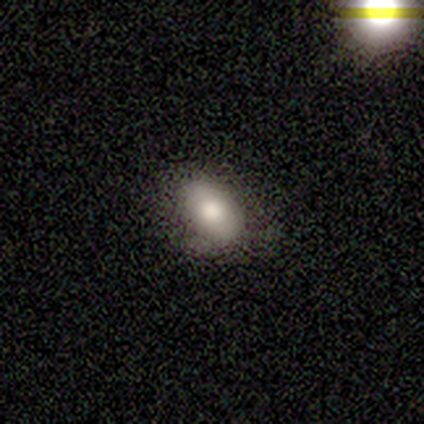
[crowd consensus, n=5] A smooth galaxy with no disk features (80%) that is in between round and cigar-shaped (100%). Merging: none (80%).